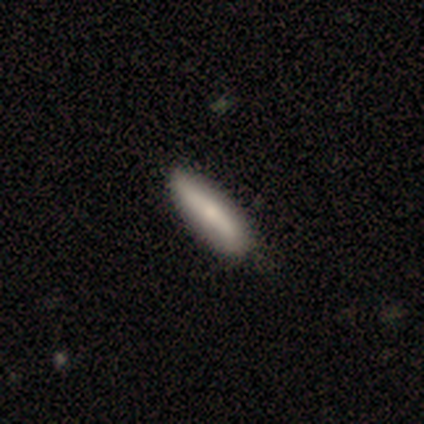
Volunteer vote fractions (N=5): This appears to be a smooth galaxy with no disk features (60%) that is cigar-shaped (67%). Merging: none (80%).